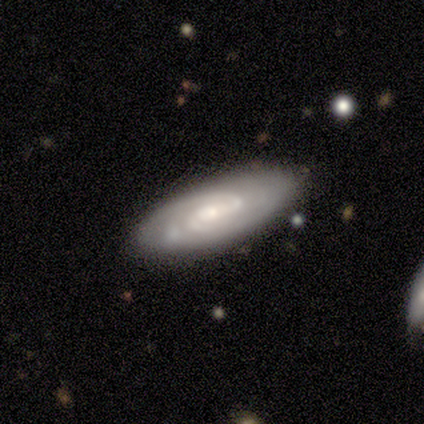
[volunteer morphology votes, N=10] smooth_or_featured: featured or disk (p=0.90) [alt: smooth p=0.10]
disk_edge_on: no (p=0.89) [alt: yes p=0.11]
bar: weak (p=0.62) [alt: no p=0.25]
has_spiral_arms: yes (p=1.00)
spiral_winding: tight (p=0.50) [tied with: medium p=0.50]
spiral_arm_count: 2 (p=0.62) [alt: 1 p=0.12]
bulge_size: moderate (p=0.62) [alt: small p=0.38]
merging: none (p=0.80) [alt: minor disturbance p=0.20]